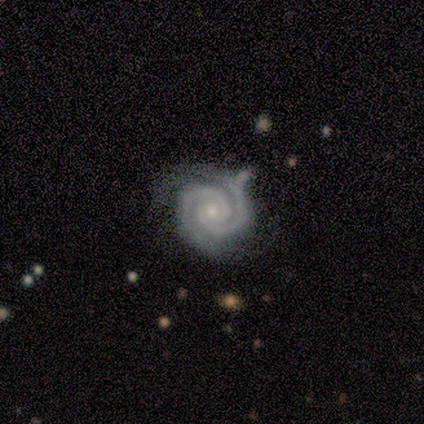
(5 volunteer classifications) Morphology: type=featured or disk (100%); edge-on=no (80%); bar=no (75%); spiral arms=yes (100%); winding=tight (100%); arm count=2 (100%); bulge=small (75%); merging=none (60%).